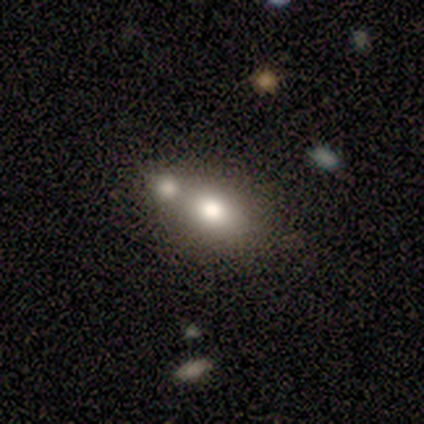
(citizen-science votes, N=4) Smooth or featured?
  - smooth: 50% *
  - featured or disk: 25%
  - star or artifact: 25%
How rounded?
  - round: 100% *
  - in between: 0%
  - cigar-shaped: 0%
Merging?
  - none: 67% *
  - minor disturbance: 33%
  - major disturbance: 0%
  - merger: 0%